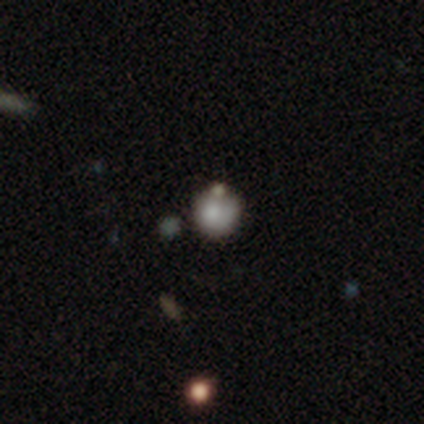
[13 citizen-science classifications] This is likely a smooth galaxy (69%). How rounded: likely round (78%). Merging: likely none (64%).